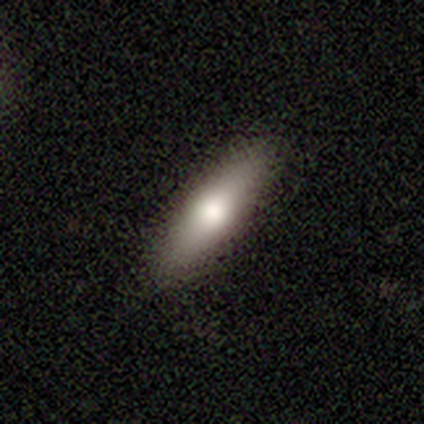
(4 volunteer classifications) Smooth or featured? smooth (75%)
How rounded? in between (67%)
Merging? none (100%)